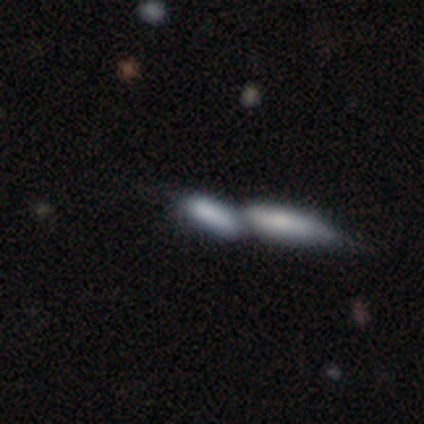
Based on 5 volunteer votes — Volunteers were most divided on "how rounded": cigar-shaped: 67%, in between: 33%, round: 0%. More confident: merging — merger (75%); smooth or featured — smooth (60%).